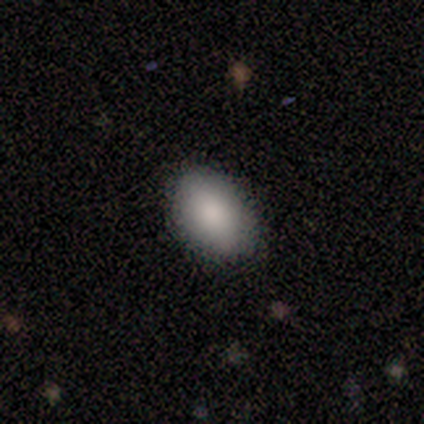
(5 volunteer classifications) smooth_or_featured: smooth (p=1.00)
how_rounded: in between (p=1.00)
merging: none (p=1.00)